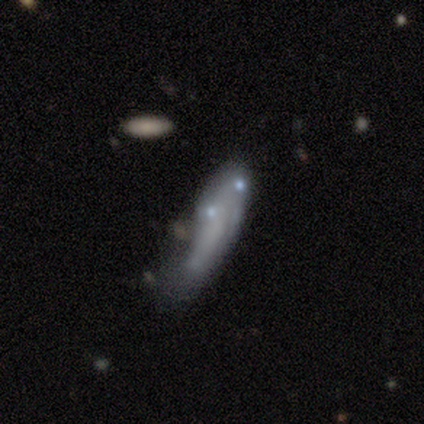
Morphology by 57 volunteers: A smooth galaxy with no disk features (68%) that is in between round and cigar-shaped (56%).

Vote fractions:
- Smooth or featured? smooth: 68% / featured or disk: 28% / star or artifact: 4%
- How rounded? in between: 56% / cigar-shaped: 44% / round: 0%
- Merging? major disturbance: 36% / none: 29% / minor disturbance: 24% / merger: 11%